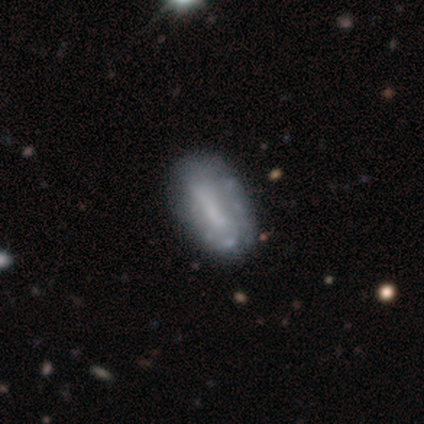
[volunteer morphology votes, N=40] type=featured or disk (55%); edge-on=no (91%); bar=strong (60%); spiral arms=no (60%); bulge=none (70%); merging=none (55%).